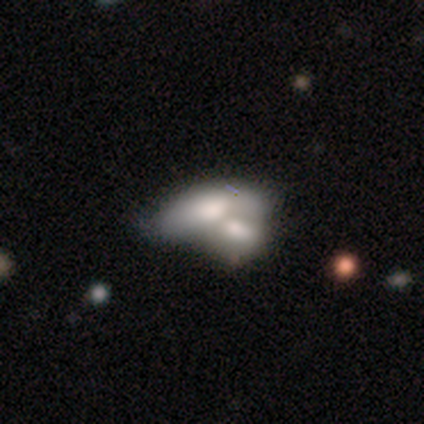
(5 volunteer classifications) This appears to be a smooth galaxy with no disk features (60%) that is in between round and cigar-shaped (100%). Merging: merger (100%).